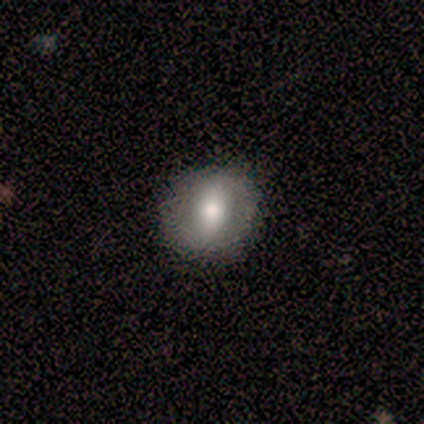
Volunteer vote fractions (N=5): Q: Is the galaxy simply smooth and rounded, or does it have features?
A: featured or disk — 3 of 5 (60%).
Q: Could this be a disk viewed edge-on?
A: no — 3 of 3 (100%).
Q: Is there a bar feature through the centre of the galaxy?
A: strong — 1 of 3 (33%, tied with weak and no).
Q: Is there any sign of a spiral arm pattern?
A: yes — 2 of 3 (67%).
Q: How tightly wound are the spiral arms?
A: tight — 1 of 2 (50%, tied with medium).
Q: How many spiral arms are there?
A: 2 — 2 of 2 (100%).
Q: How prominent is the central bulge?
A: moderate — 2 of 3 (67%).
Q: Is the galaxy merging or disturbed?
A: none — 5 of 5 (100%).